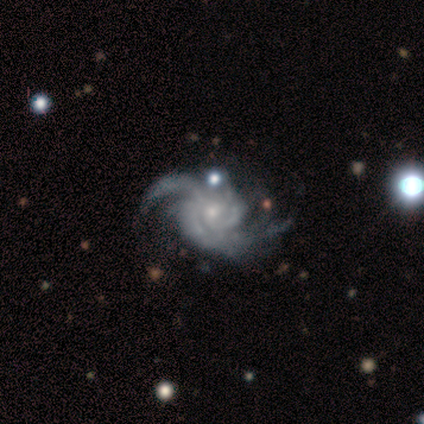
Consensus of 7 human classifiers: Smooth or featured?
  - featured or disk: 86% *
  - star or artifact: 14%
  - smooth: 0%
Edge-on disk?
  - no: 100% *
  - yes: 0%
Bar?
  - no: 83% *
  - weak: 17%
  - strong: 0%
Spiral arms?
  - yes: 100% *
  - no: 0%
Spiral winding?
  - tight: 50% *
  - loose: 33%
  - medium: 17%
Spiral arm count?
  - 2: 33% * (tied)
  - 4: 33% * (tied)
  - more than 4: 33% * (tied)
  - 1: 0%
  - 3: 0%
  - can't tell: 0%
Bulge size?
  - small: 83% *
  - moderate: 17%
  - dominant: 0%
  - large: 0%
  - none: 0%
Merging?
  - none: 50% * (tied)
  - minor disturbance: 50% * (tied)
  - major disturbance: 0%
  - merger: 0%